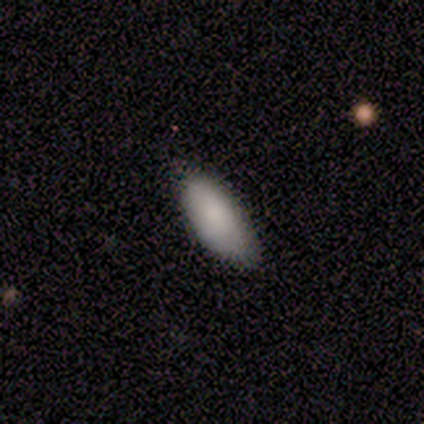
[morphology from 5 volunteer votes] Overall: smooth (100%). How rounded: in between (100%). Merging: none (80%).